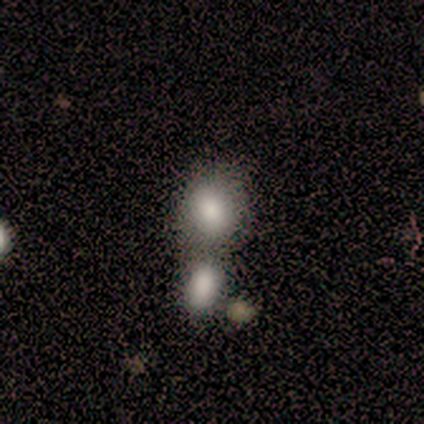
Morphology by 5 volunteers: smooth-or-featured: smooth: 80% | star or artifact: 20% | featured or disk: 0%
  how-rounded: in between: 75% | round: 25% | cigar-shaped: 0%
  merging: merger: 50% | none: 25% | minor disturbance: 25% | major disturbance: 0%